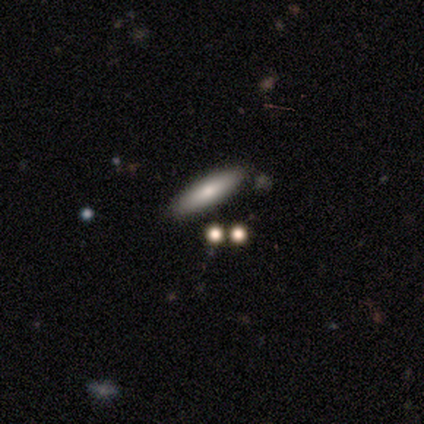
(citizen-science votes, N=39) A smooth galaxy with no disk features (79%) that is cigar-shaped (71%).

Vote fractions:
- Smooth or featured? smooth: 79% / featured or disk: 21% / star or artifact: 0%
- How rounded? cigar-shaped: 71% / in between: 26% / round: 3%
- Merging? none: 85% / minor disturbance: 8% / merger: 8% / major disturbance: 0%